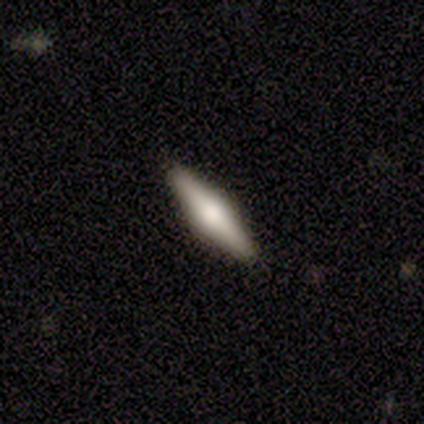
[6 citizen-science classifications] Overall: featured or disk (83%). Edge-on disk: yes (100%). Edge-on bulge: rounded (80%). Merging: none (83%).